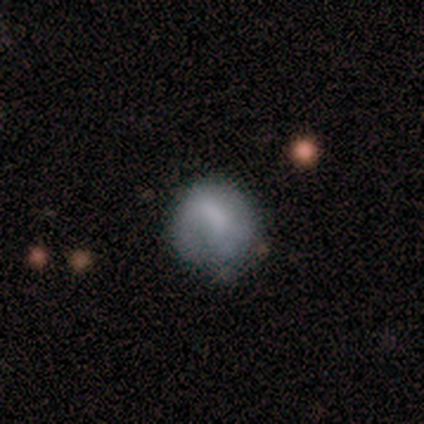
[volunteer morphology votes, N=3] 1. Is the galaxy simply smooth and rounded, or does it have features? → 33% smooth (tied), 33% featured or disk (tied), 33% star or artifact (tied).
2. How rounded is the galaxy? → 100% in between, 0% round, 0% cigar-shaped.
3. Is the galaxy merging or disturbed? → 100% major disturbance, 0% none, 0% minor disturbance, 0% merger.